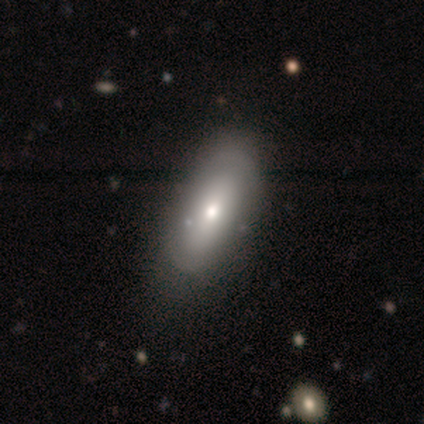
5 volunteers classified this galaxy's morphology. Smooth or featured? smooth (40%, tied with featured or disk)
How rounded? in between (50%, tied with cigar-shaped)
Merging? none (75%)